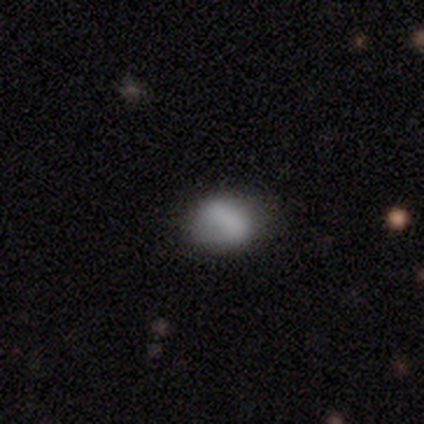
Smooth or featured?
  - smooth: 88% *
  - featured or disk: 12%
  - star or artifact: 0%
How rounded?
  - in between: 57% *
  - round: 43%
  - cigar-shaped: 0%
Merging?
  - none: 88% *
  - major disturbance: 12%
  - minor disturbance: 0%
  - merger: 0%